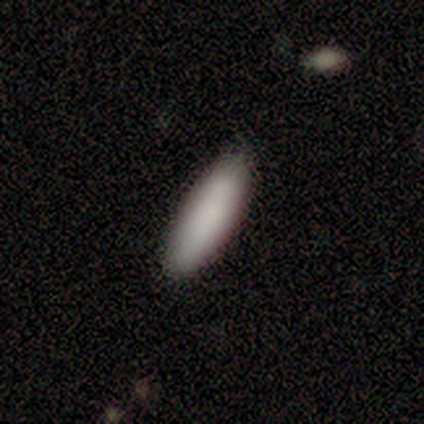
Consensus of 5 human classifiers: A smooth galaxy with no disk features (80%) that is in between round and cigar-shaped (75%).

Vote fractions:
- Smooth or featured? smooth: 80% / featured or disk: 20% / star or artifact: 0%
- How rounded? in between: 75% / cigar-shaped: 25% / round: 0%
- Merging? none: 100% / minor disturbance: 0% / major disturbance: 0% / merger: 0%